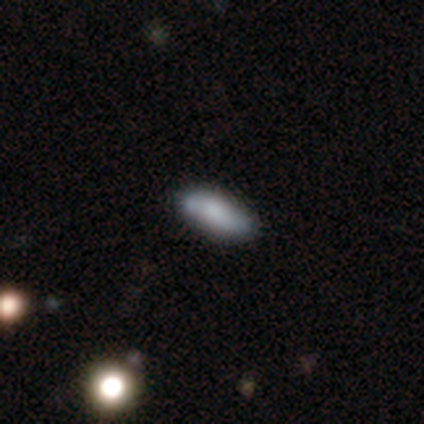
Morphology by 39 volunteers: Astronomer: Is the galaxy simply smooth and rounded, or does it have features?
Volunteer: smooth — 79%.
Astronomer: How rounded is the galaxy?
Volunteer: in between — 61%.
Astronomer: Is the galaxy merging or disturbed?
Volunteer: none — 70%.